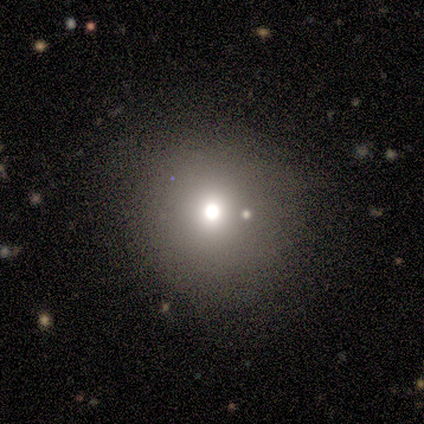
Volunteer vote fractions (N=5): A smooth galaxy with no disk features (60%) that is round (100%).

Vote fractions:
- Smooth or featured? smooth: 60% / featured or disk: 20% / star or artifact: 20%
- How rounded? round: 100% / in between: 0% / cigar-shaped: 0%
- Merging? none: 50% (tied) / minor disturbance: 50% (tied) / major disturbance: 0% / merger: 0%